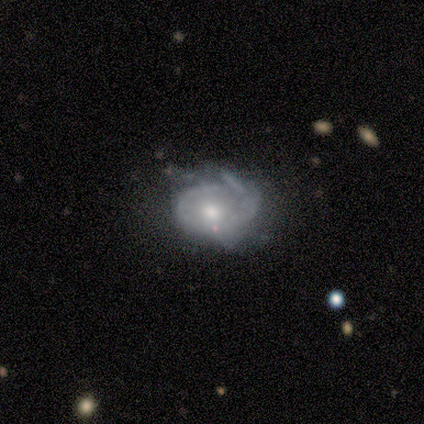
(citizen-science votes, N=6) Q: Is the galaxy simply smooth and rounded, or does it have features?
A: featured or disk — 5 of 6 (83%).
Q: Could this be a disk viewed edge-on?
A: no — 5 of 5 (100%).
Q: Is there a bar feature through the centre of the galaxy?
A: no — 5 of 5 (100%).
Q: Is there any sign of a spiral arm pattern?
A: yes — 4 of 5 (80%).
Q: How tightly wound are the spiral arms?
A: tight — 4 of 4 (100%).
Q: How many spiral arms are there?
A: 1 — 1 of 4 (25%, tied with 2, 4 and can't tell).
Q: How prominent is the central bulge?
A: moderate — 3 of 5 (60%).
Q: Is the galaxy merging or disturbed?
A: minor disturbance — 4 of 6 (67%).